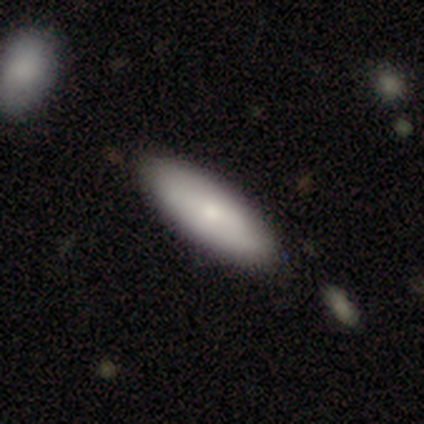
Morphology: type=smooth (69%); roundness=cigar-shaped (52%); merging=none (89%).